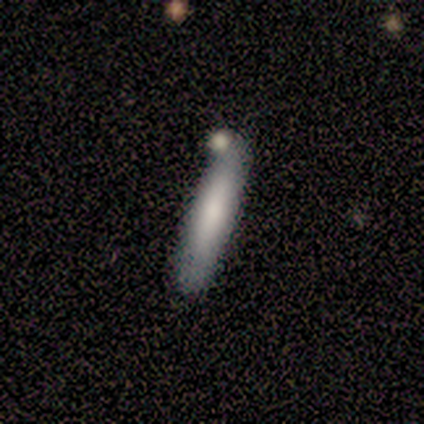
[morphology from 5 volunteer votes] A smooth galaxy with no disk features (100%) that is cigar-shaped (80%). Merging: none (80%).